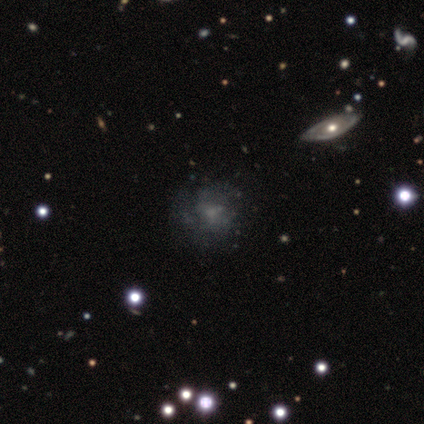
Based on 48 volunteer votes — A featured or disk galaxy (44%) with no bar (95%), no spiral arms (74%) and a small central bulge (47%).

Vote fractions:
- Smooth or featured? featured or disk: 44% / smooth: 33% / star or artifact: 23%
- Edge-on disk? no: 90% / yes: 10%
- Bar? no: 95% / weak: 5% / strong: 0%
- Spiral arms? no: 74% / yes: 26%
- Bulge size? small: 47% / none: 37% / moderate: 16% / dominant: 0% / large: 0%
- Merging? none: 70% / major disturbance: 19% / minor disturbance: 8% / merger: 3%